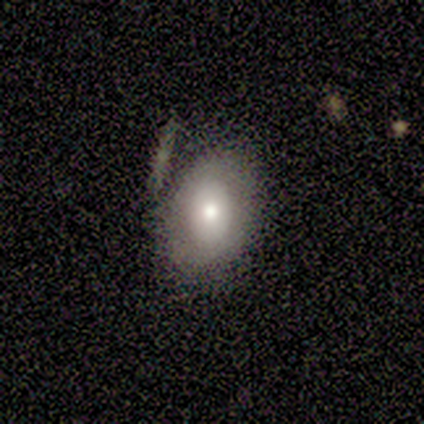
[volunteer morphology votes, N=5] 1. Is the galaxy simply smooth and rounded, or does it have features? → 80% smooth, 20% featured or disk, 0% star or artifact.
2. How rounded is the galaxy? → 100% in between, 0% round, 0% cigar-shaped.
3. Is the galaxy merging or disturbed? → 60% none, 20% minor disturbance, 20% merger, 0% major disturbance.